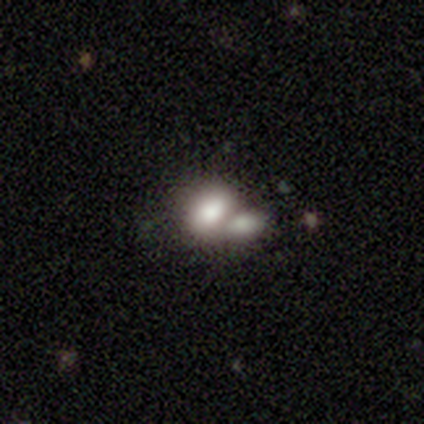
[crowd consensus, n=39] Morphology: type=smooth (85%); roundness=in between (82%); merging=merger (75%).